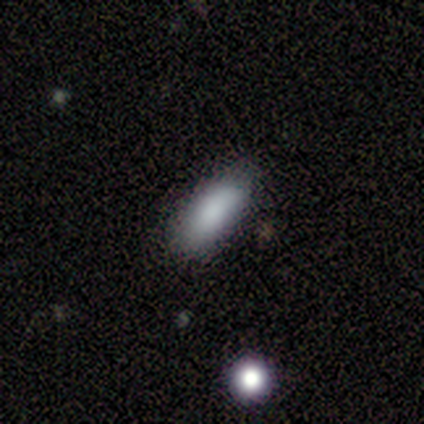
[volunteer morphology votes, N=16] Q: Smooth or featured?
A: smooth (88%); runner-up: featured or disk (6%)
Q: How rounded?
A: in between (64%); runner-up: cigar-shaped (36%)
Q: Merging?
A: none (53%); runner-up: minor disturbance (47%)